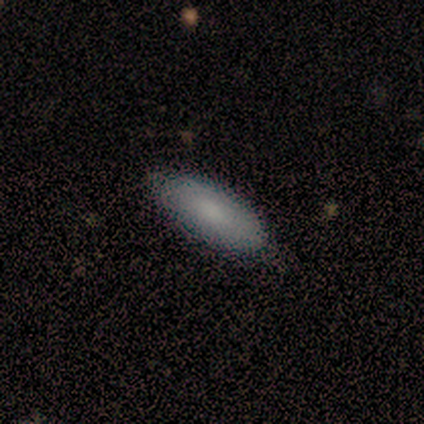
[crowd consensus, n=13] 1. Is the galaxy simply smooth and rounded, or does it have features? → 77% smooth, 23% featured or disk, 0% star or artifact.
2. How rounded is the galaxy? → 70% in between, 30% cigar-shaped, 0% round.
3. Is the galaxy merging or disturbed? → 85% none, 15% minor disturbance, 0% major disturbance, 0% merger.